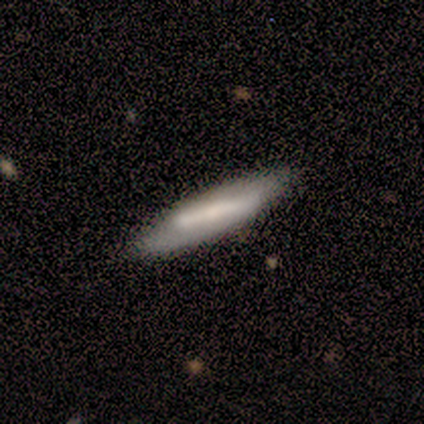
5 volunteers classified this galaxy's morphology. Smooth or featured? 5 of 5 (100%) said smooth. How rounded? 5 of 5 (100%) said cigar-shaped. Merging? 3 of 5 (60%) said none.